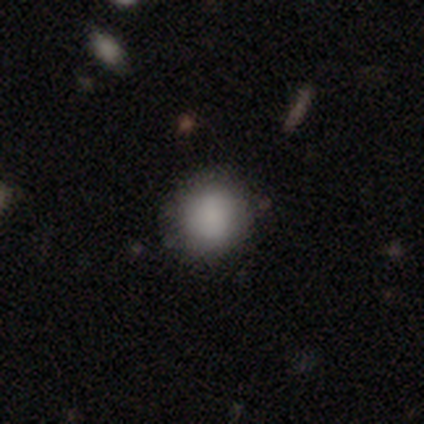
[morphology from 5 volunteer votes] smooth_or_featured: smooth (p=0.80) [alt: featured or disk p=0.20]
how_rounded: round (p=0.75) [alt: in between p=0.25]
merging: none (p=0.80) [alt: minor disturbance p=0.20]